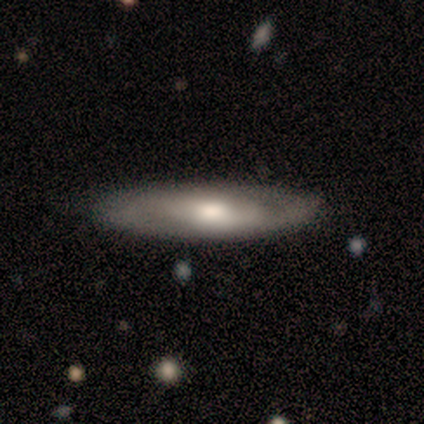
This is likely a featured or disk galaxy (60%). It is likely not viewed edge-on (67%). Bar: possibly weak (50%, tied with no). Spiral arm pattern: clearly no (100%). Central bulge: clearly moderate (100%). Merging: likely none (75%).